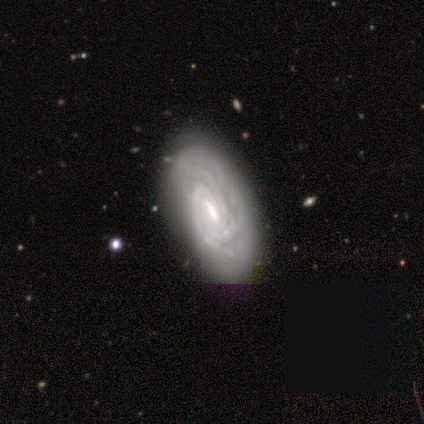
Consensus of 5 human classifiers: Q: Smooth or featured?
A: featured or disk (100%)
Q: Edge-on disk?
A: no (100%)
Q: Bar?
A: weak (60%); runner-up: strong (20%)
Q: Spiral arms?
A: yes (100%)
Q: Spiral winding?
A: tight (100%)
Q: Spiral arm count?
A: 3 (60%); runner-up: 4 (20%)
Q: Bulge size?
A: small (60%); runner-up: moderate (40%)
Q: Merging?
A: none (100%)